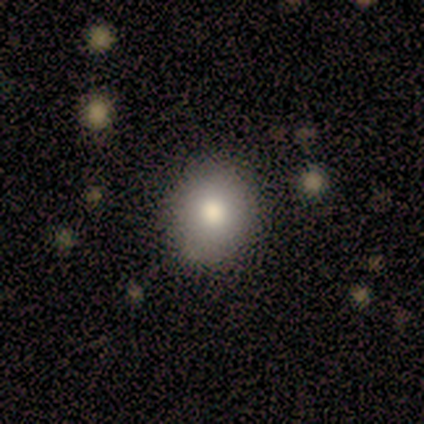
This appears to be a smooth galaxy with no disk features (40%, tied with featured or disk) that is round (100%). Merging: none (100%).